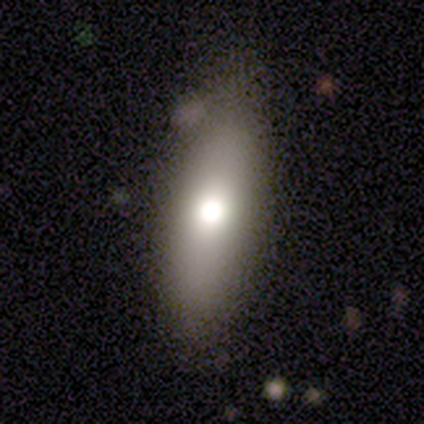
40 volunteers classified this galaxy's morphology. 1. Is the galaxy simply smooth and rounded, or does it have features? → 70% smooth, 25% featured or disk, 5% star or artifact.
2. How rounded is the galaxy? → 50% in between, 46% cigar-shaped, 4% round.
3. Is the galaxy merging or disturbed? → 79% none, 18% minor disturbance, 3% major disturbance, 0% merger.